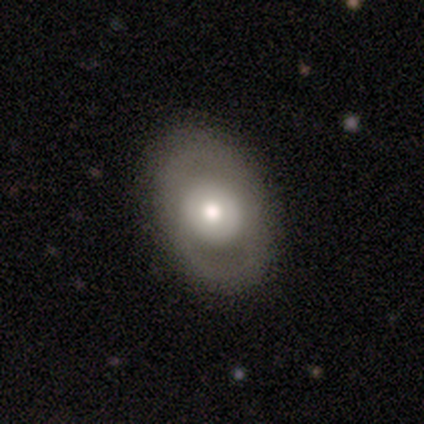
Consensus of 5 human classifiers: Overall: featured or disk (100%). Edge-on disk: no (80%). Bar: no (75%). Spiral arms: no (75%). Bulge size: large (75%). Merging: none (100%).